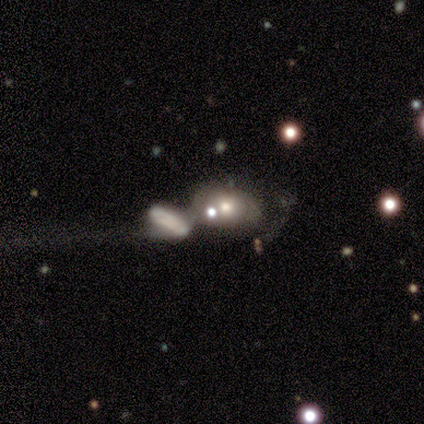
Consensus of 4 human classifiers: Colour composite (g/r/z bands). It shows a smooth galaxy with no disk features (50%) that is in between round and cigar-shaped (100%). Merging: merger (67%).